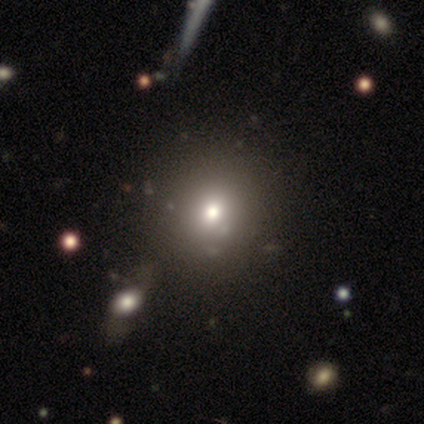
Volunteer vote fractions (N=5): Smooth or featured? 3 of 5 (60%) said smooth. How rounded? 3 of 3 (100%) said round. Merging? 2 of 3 (67%) said none.